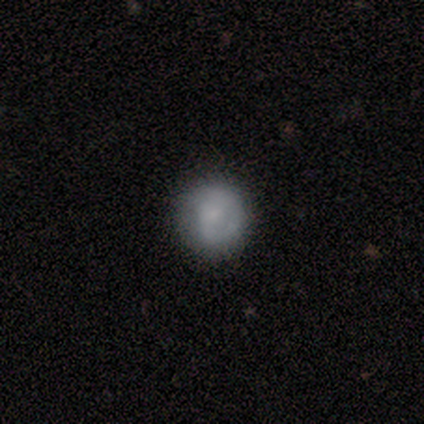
Morphology: type=smooth (80%); roundness=round (100%); merging=none (80%).